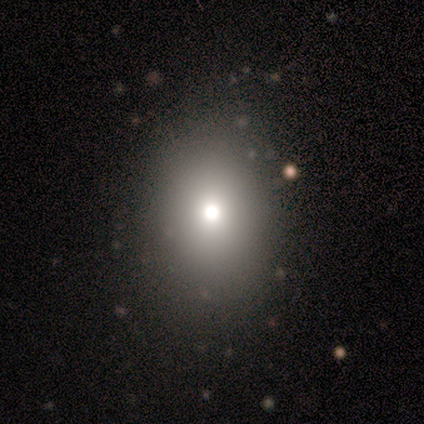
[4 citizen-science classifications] smooth_or_featured: smooth (p=0.75) [alt: featured or disk p=0.25]
how_rounded: round (p=0.67) [alt: in between p=0.33]
merging: none (p=0.75) [alt: major disturbance p=0.25]